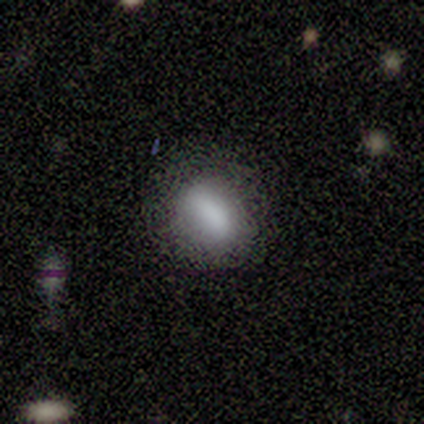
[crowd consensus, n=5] Morphology: type=smooth (60%); roundness=in between (100%); merging=none (50%, tied with minor disturbance).